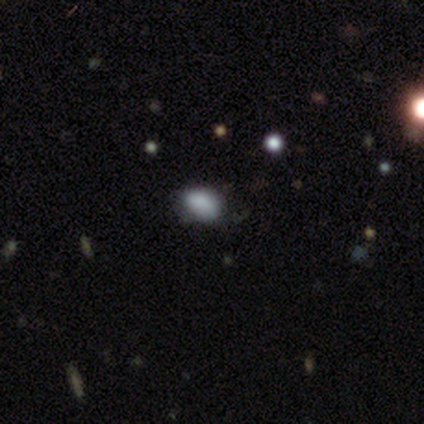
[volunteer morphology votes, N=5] Overall: smooth (80%). How rounded: in between (75%). Merging: none (75%).